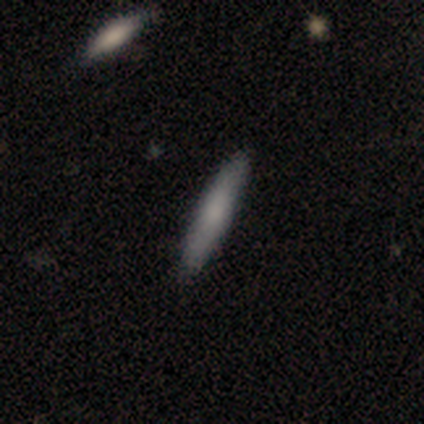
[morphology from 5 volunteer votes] This is clearly a smooth galaxy (80%). How rounded: clearly cigar-shaped (100%). Merging: likely none (60%).